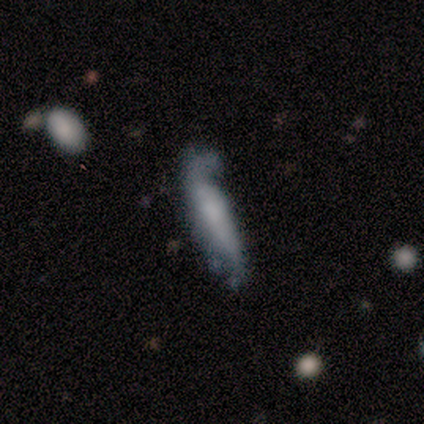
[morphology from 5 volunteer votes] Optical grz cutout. It shows a featured or disk galaxy (60%) with a weak bar (50%, tied with no), 1 (100%) tight (100%) spiral arms (50%, tied with no) and no central bulge (100%). Merging: minor disturbance (40%).